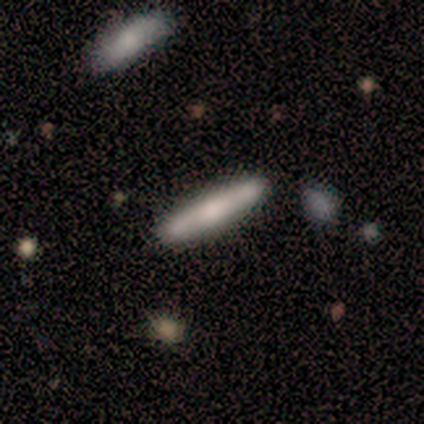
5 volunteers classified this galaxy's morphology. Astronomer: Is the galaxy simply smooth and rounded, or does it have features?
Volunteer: smooth — 60%.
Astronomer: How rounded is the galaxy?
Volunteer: cigar-shaped — 100%.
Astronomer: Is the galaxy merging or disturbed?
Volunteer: none — 75%.